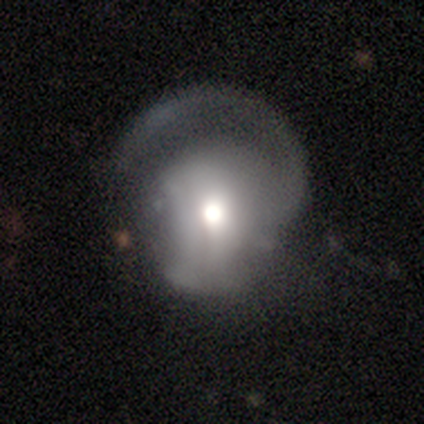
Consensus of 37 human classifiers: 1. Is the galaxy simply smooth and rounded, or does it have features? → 57% featured or disk, 35% smooth, 8% star or artifact.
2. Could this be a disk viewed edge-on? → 100% no, 0% yes.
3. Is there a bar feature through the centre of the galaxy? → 62% no, 24% weak, 14% strong.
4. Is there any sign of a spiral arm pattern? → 76% yes, 24% no.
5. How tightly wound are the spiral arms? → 38% medium, 31% tight, 31% loose.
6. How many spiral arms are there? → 94% 1, 6% can't tell, 0% 2, 0% 3, 0% 4, 0% more than 4.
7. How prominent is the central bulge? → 57% moderate, 29% large, 10% dominant, 5% small, 0% none.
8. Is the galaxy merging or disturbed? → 50% major disturbance, 47% none, 3% minor disturbance, 0% merger.